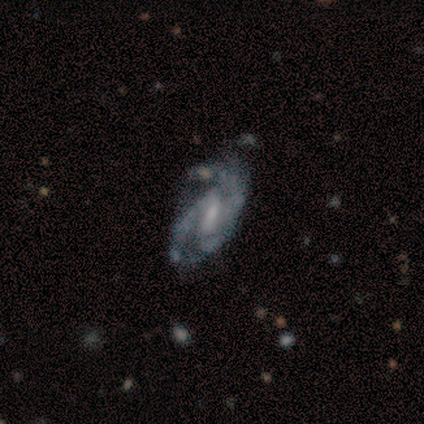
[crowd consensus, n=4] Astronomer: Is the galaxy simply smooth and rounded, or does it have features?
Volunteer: featured or disk — 75%.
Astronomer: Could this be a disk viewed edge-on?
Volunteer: no — 100%.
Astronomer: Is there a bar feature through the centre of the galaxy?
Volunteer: weak — 100%.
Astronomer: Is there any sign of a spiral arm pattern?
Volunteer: yes — 100%.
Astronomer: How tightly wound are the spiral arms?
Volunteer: medium — 100%.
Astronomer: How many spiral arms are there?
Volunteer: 2 — 67%.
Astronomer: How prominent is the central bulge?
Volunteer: small — 100%.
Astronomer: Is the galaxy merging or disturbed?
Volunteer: minor disturbance — 50%.